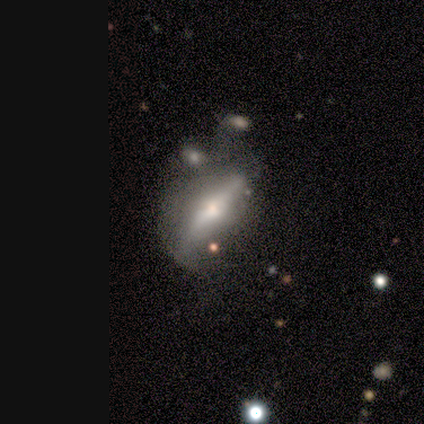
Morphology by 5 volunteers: smooth_or_featured: featured or disk (p=0.60) [alt: smooth p=0.20]
disk_edge_on: yes (p=0.67) [alt: no p=0.33]
edge_on_bulge: rounded (p=1.00)
merging: none (p=0.25) [tied with: minor disturbance p=0.25, major disturbance p=0.25, merger p=0.25]